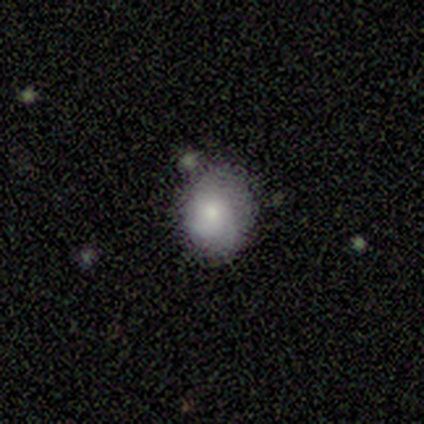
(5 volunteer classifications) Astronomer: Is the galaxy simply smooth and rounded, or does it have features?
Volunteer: smooth — 100%.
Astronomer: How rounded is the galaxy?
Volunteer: in between — 60% (runner-up: round, 40%).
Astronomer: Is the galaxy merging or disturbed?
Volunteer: none — 60%.